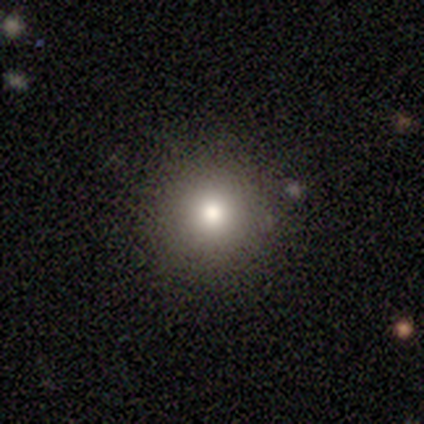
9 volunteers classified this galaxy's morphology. type=smooth (78%); roundness=round (100%); merging=none (100%).